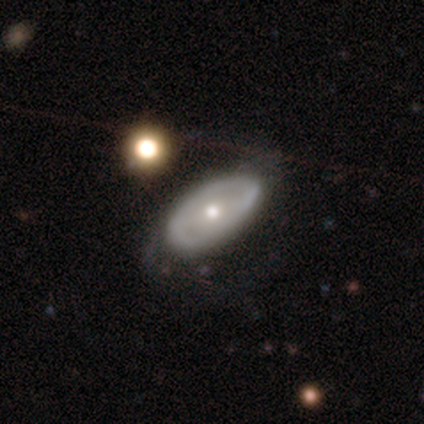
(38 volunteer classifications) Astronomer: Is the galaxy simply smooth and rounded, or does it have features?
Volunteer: featured or disk — 71%.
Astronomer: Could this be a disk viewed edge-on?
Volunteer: no — 89%.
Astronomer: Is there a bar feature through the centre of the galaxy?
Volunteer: no — 62%.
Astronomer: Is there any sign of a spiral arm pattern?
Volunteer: no — 58% (runner-up: yes, 42%).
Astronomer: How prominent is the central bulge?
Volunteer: moderate — 62%.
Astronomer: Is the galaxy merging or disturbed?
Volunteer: none — 57%.